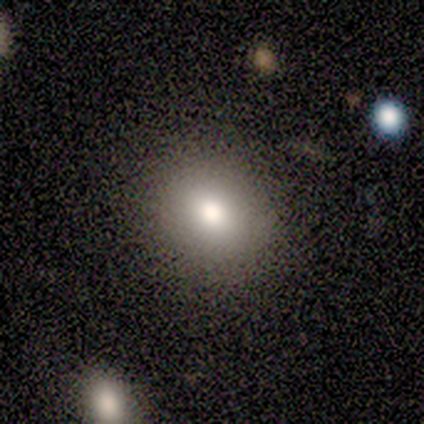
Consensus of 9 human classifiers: Morphology: type=smooth (78%); roundness=round (71%); merging=none (86%).